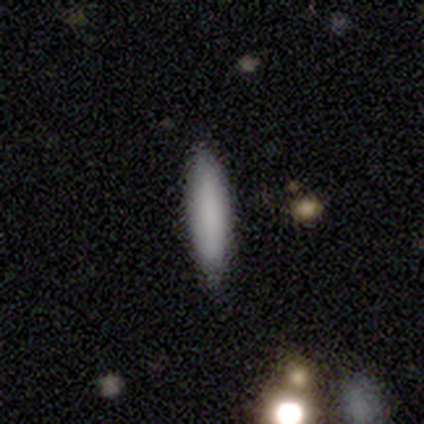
smooth-or-featured: smooth: 80% | featured or disk: 20% | star or artifact: 0%
  how-rounded: cigar-shaped: 75% | in between: 25% | round: 0%
  merging: none: 100% | minor disturbance: 0% | major disturbance: 0% | merger: 0%